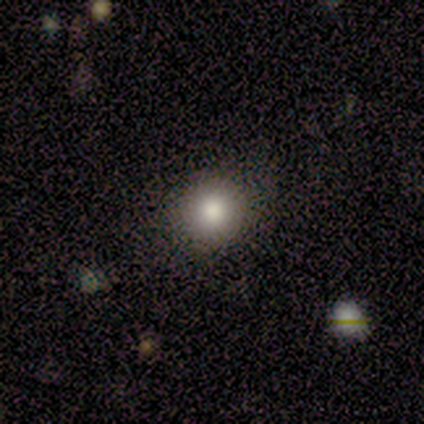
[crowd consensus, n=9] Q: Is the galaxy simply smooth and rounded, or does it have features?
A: smooth — 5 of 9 (56%).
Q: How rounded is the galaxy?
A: round — 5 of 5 (100%).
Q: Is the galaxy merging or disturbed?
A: none — 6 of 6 (100%).